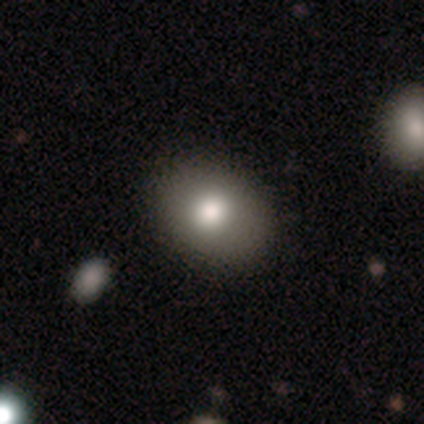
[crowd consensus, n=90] A smooth galaxy with no disk features (78%) that is in between round and cigar-shaped (69%).

Vote fractions:
- Smooth or featured? smooth: 78% / featured or disk: 14% / star or artifact: 8%
- How rounded? in between: 69% / round: 31% / cigar-shaped: 0%
- Merging? none: 80% / minor disturbance: 16% / major disturbance: 5% / merger: 0%